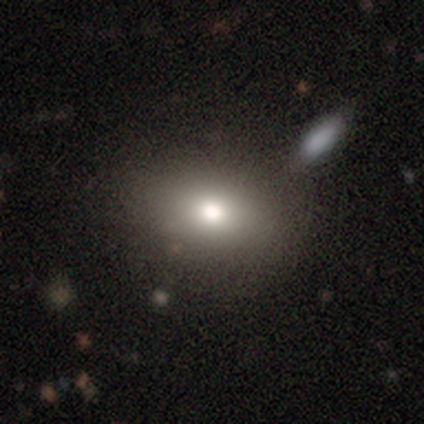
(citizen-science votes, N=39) A smooth galaxy with no disk features (79%) that is in between round and cigar-shaped (81%). Merging: none (50%).